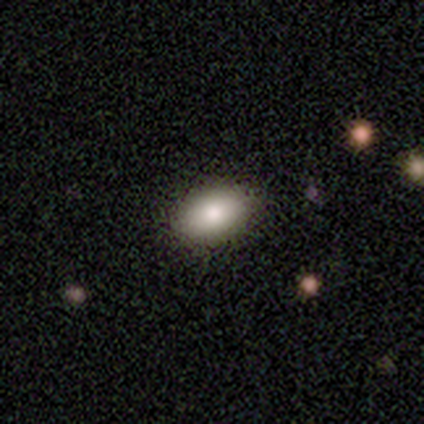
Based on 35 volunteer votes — Overall: smooth (71%). How rounded: in between (80%). Merging: none (86%).